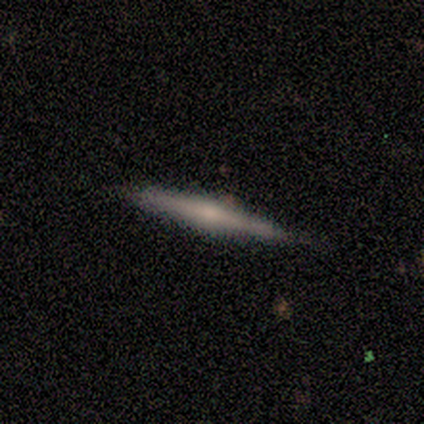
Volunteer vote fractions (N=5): Q: Smooth or featured?
A: smooth (60%); runner-up: featured or disk (40%)
Q: How rounded?
A: cigar-shaped (67%); runner-up: in between (33%)
Q: Merging?
A: none (100%)